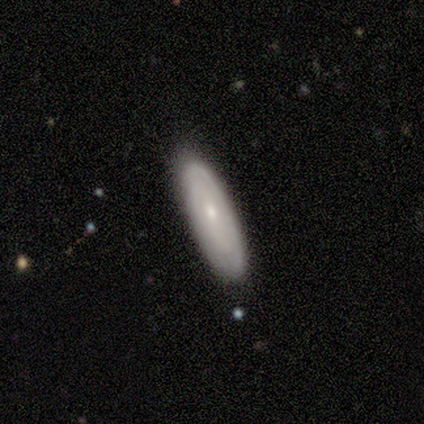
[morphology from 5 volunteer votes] Overall: featured or disk (80%). Edge-on disk: no (75%). Bar: no (67%; weak 33%). Spiral arms: yes (100%). Spiral arm count: 1 (33%, tied with 3 and can't tell). Spiral winding: medium (67%; tight 33%). Bulge size: small (100%). Merging: none (80%).